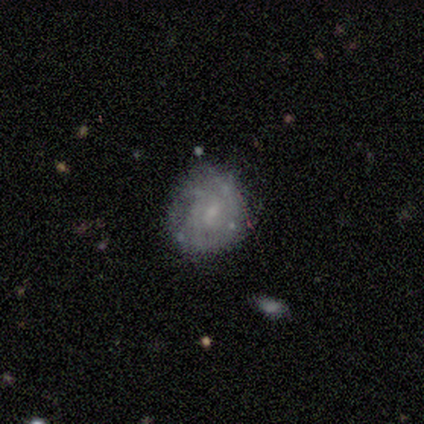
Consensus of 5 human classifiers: This is clearly a featured or disk galaxy (80%). It is clearly not viewed edge-on (100%). Bar: possibly weak (50%, tied with no). Spiral arm pattern: possibly yes (50%, tied with no). Spiral arm count: clearly can't tell (100%). Spiral winding: clearly tight (100%). Central bulge: possibly moderate (50%, tied with small). Merging: clearly none (80%).